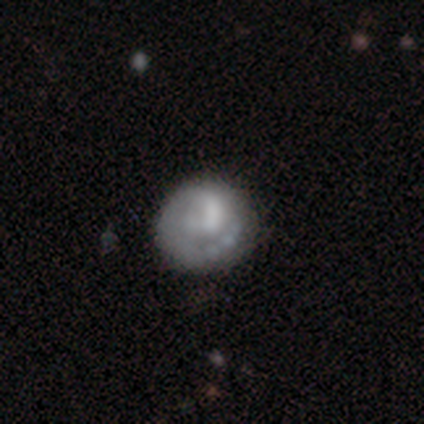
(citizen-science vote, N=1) Overall: featured or disk (100%). Edge-on disk: no (100%). Bar: weak (100%). Spiral arms: yes (100%). Spiral arm count: 2 (100%). Spiral winding: tight (100%). Bulge size: none (100%). Merging: none (100%).